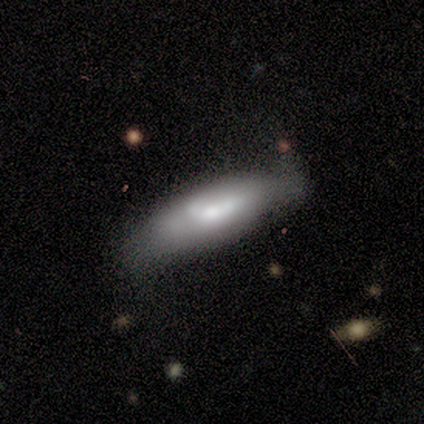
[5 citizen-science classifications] A smooth galaxy with no disk features (60%) that is cigar-shaped (67%).

Vote fractions:
- Smooth or featured? smooth: 60% / featured or disk: 40% / star or artifact: 0%
- How rounded? cigar-shaped: 67% / in between: 33% / round: 0%
- Merging? none: 60% / minor disturbance: 20% / major disturbance: 20% / merger: 0%